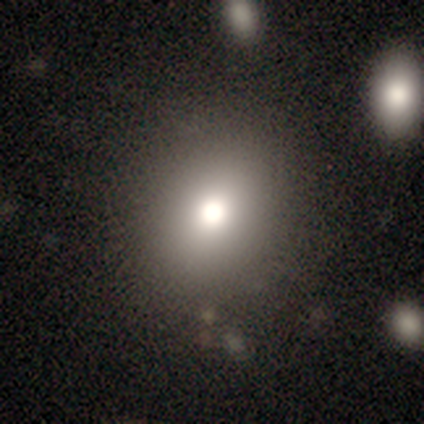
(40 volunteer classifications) Overall: smooth (75%). How rounded: round (87%). Merging: none (78%).